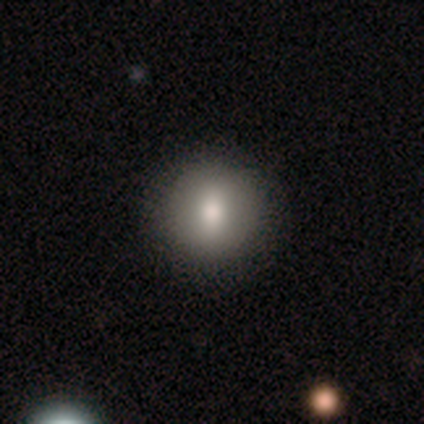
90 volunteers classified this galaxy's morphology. Q: Smooth or featured?
A: smooth (73%); runner-up: featured or disk (18%)
Q: How rounded?
A: round (91%); runner-up: in between (9%)
Q: Merging?
A: none (90%); runner-up: minor disturbance (7%)